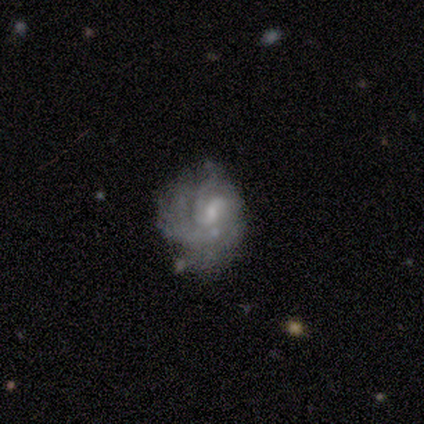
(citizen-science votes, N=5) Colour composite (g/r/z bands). It shows a featured or disk galaxy (100%) with no bar (100%), tight (50%, tied with medium) spiral arms (80%) and a small central bulge (80%). Merging: minor disturbance (60%).